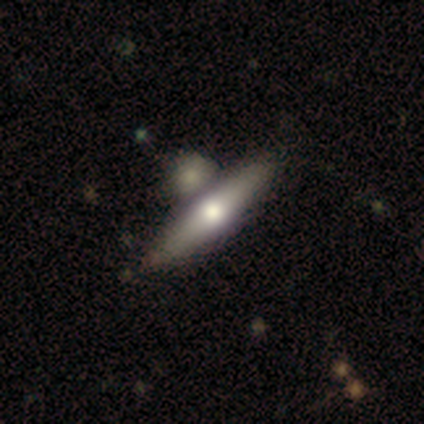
This appears to be a featured or disk galaxy (55%) viewed edge-on (86%) with a rounded central bulge (100%). Merging: none (62%).